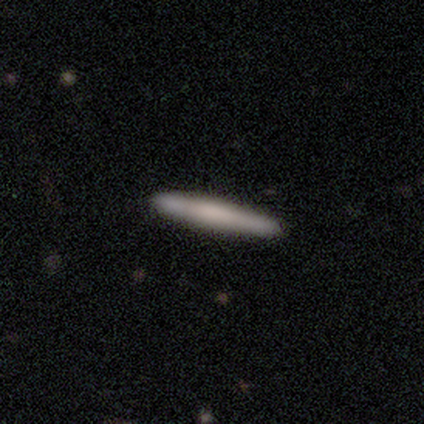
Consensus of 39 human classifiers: Volunteers were most divided on "smooth or featured": featured or disk: 51%, smooth: 49%, star or artifact: 0%. More confident: edge-on disk — yes (90%); merging — none (62%); edge-on bulge — rounded (50%).